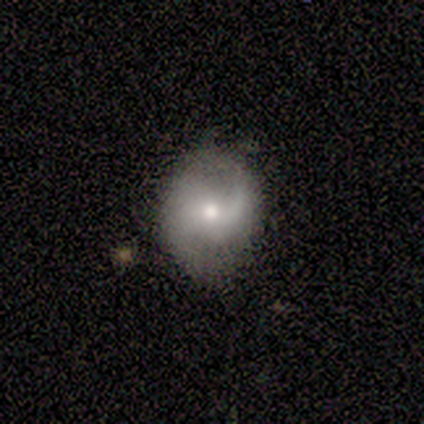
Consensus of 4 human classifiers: smooth_or_featured: smooth (p=0.50) [tied with: featured or disk p=0.50]
how_rounded: round (p=0.50) [tied with: in between p=0.50]
merging: none (p=0.50) [alt: minor disturbance p=0.25]